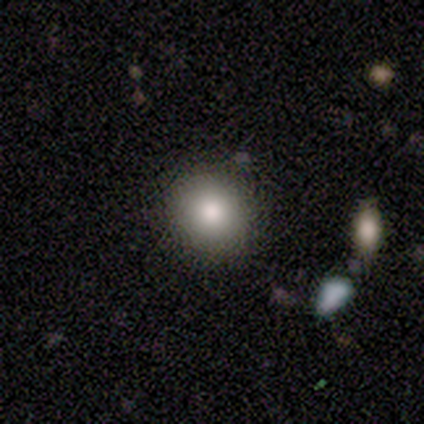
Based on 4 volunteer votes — Q: Smooth or featured?
A: smooth (100%)
Q: How rounded?
A: round (100%)
Q: Merging?
A: none (100%)